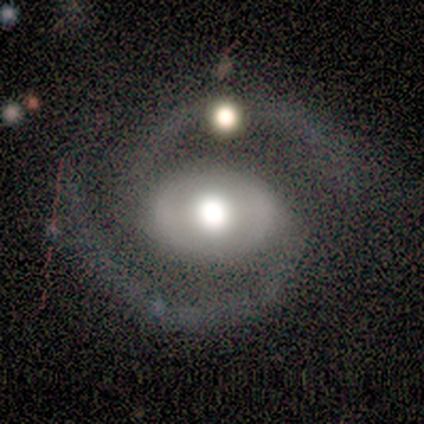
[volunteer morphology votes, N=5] Q: Smooth or featured?
A: featured or disk (80%); runner-up: star or artifact (20%)
Q: Edge-on disk?
A: no (100%)
Q: Bar?
A: weak (50%); runner-up: strong (25%)
Q: Spiral arms?
A: yes (100%)
Q: Spiral winding?
A: tight (50%); tied with: medium (50%)
Q: Spiral arm count?
A: 2 (100%)
Q: Bulge size?
A: large (50%); tied with: moderate (50%)
Q: Merging?
A: none (75%); runner-up: minor disturbance (25%)